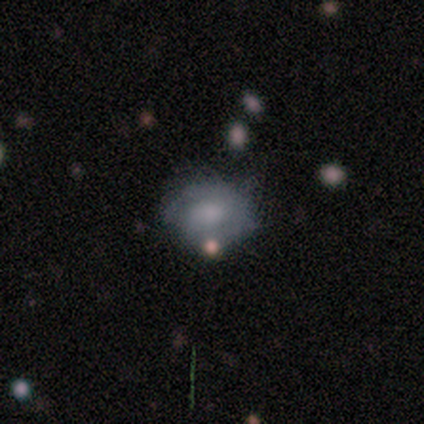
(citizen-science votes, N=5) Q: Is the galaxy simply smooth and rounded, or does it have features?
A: smooth — 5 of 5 (100%).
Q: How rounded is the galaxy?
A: round — 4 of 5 (80%).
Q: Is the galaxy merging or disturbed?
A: none — 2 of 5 (40%, tied with major disturbance).